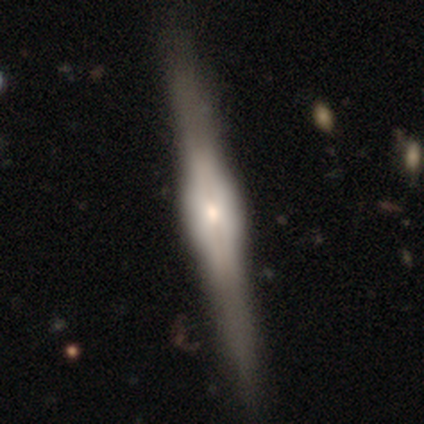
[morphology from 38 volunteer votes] type=featured or disk (84%); edge-on=yes (97%); edge-on bulge=rounded (58%); merging=none (50%).